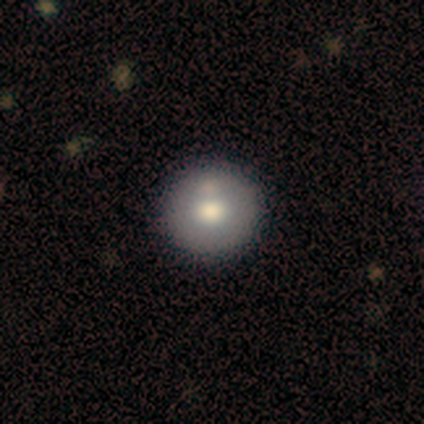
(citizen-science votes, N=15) Smooth or featured?
  - smooth: 67% *
  - featured or disk: 33%
  - star or artifact: 0%
How rounded?
  - round: 100% *
  - in between: 0%
  - cigar-shaped: 0%
Merging?
  - none: 80% *
  - minor disturbance: 20%
  - major disturbance: 0%
  - merger: 0%